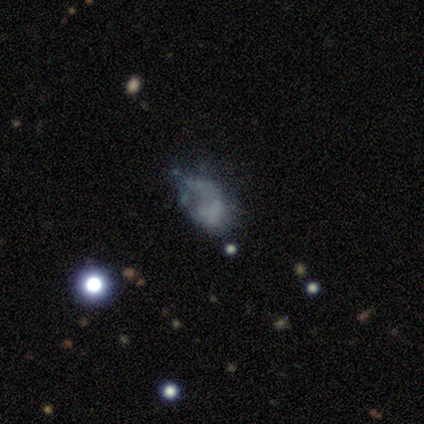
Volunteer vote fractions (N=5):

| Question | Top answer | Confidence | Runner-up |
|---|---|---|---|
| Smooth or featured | smooth | 60% | featured or disk (20%) |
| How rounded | in between | 67% | round (33%) |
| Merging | major disturbance | 75% | none (25%) |